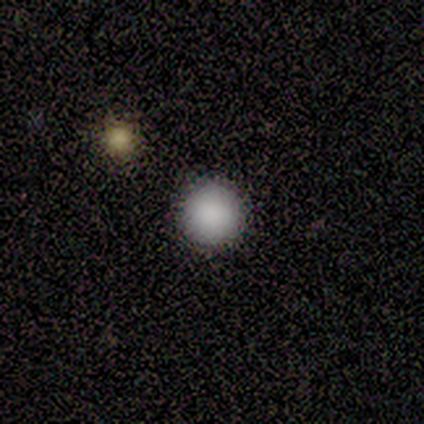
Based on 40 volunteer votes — Q: Smooth or featured?
A: smooth (82%); runner-up: star or artifact (12%)
Q: How rounded?
A: round (100%)
Q: Merging?
A: none (97%); runner-up: minor disturbance (3%)